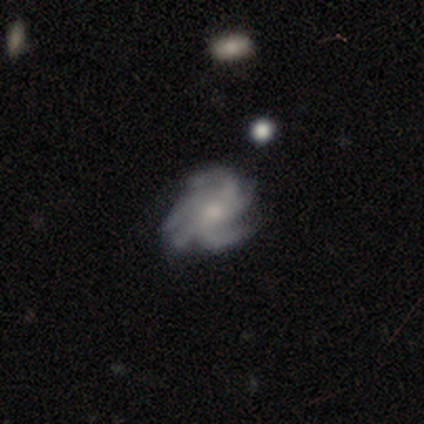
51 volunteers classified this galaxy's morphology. type=featured or disk (94%); edge-on=no (98%); bar=no (60%); spiral arms=yes (100%); winding=tight (53%); arm count=more than 4 (45%); bulge=small (57%); merging=none (75%).